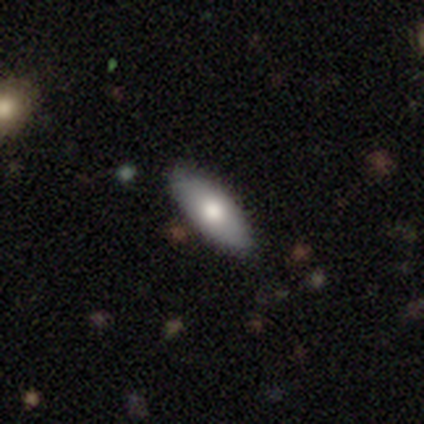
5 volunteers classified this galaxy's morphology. Overall: smooth (80%). How rounded: in between (100%). Merging: none (100%).